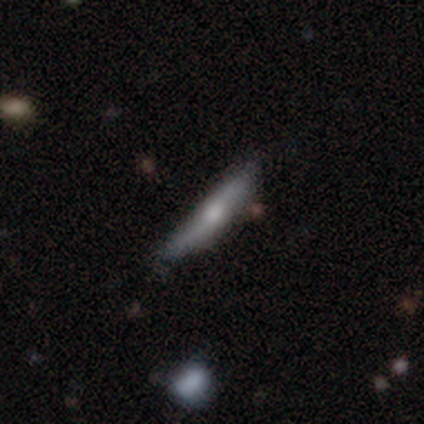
A featured or disk galaxy (60%) viewed edge-on (100%) with a rounded central bulge (67%).

Vote fractions:
- Smooth or featured? featured or disk: 60% / smooth: 40% / star or artifact: 0%
- Edge-on disk? yes: 100% / no: 0%
- Edge-on bulge? rounded: 67% / none: 33% / boxy: 0%
- Merging? none: 60% / minor disturbance: 40% / major disturbance: 0% / merger: 0%